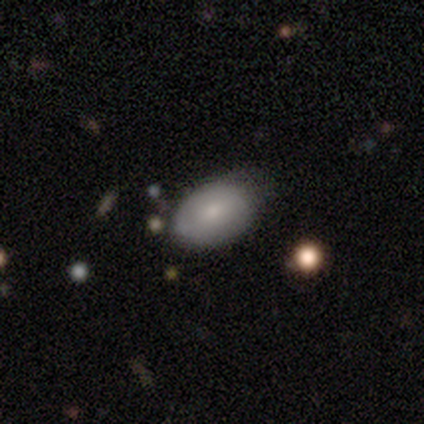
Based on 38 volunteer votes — This is likely a smooth galaxy (74%). How rounded: likely in between (75%). Merging: possibly none (58%).